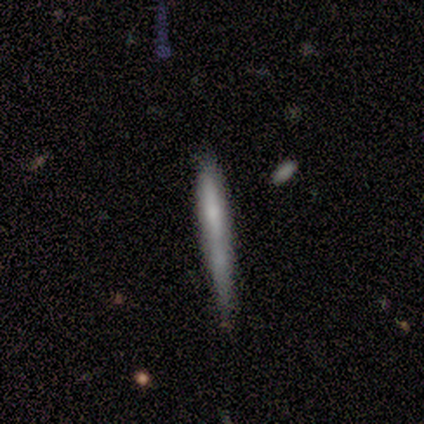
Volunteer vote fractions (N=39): smooth_or_featured: smooth (p=0.54) [alt: featured or disk p=0.26]
how_rounded: cigar-shaped (p=1.00)
merging: none (p=0.65) [alt: minor disturbance p=0.26]